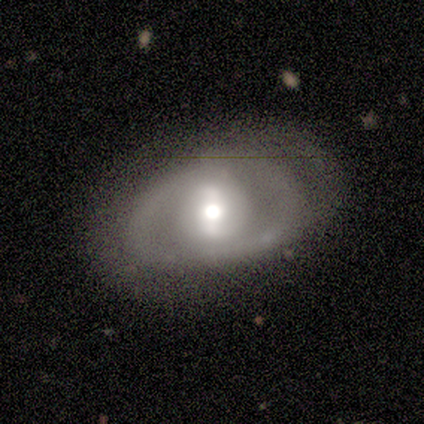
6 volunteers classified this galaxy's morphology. Smooth or featured? 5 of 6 (83%) said featured or disk. Edge-on disk? 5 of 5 (100%) said no. Bar? 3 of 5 (60%) said weak. Spiral arms? 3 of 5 (60%) said no. Bulge size? 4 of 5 (80%) said moderate. Merging? 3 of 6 (50%) said none.